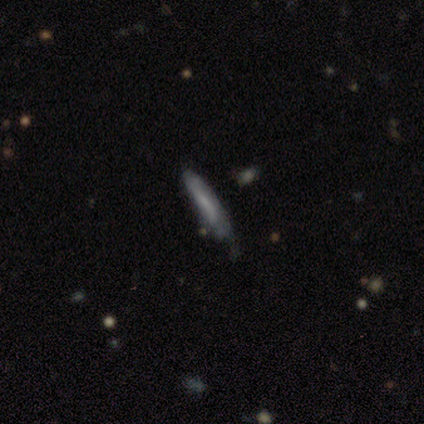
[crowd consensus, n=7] This appears to be a smooth galaxy with no disk features (57%) that is cigar-shaped (75%). Merging: none (57%).